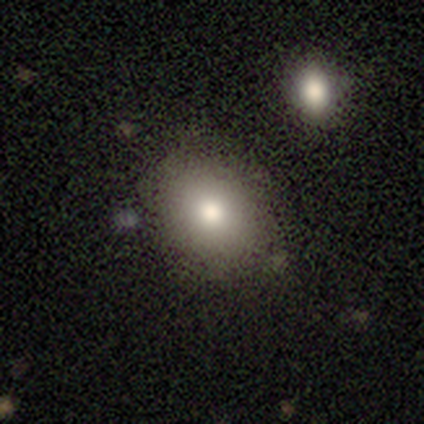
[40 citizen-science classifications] smooth-or-featured: smooth: 85% | featured or disk: 10% | star or artifact: 5%
  how-rounded: in between: 71% | round: 29% | cigar-shaped: 0%
  merging: none: 84% | minor disturbance: 5% | major disturbance: 5% | merger: 5%